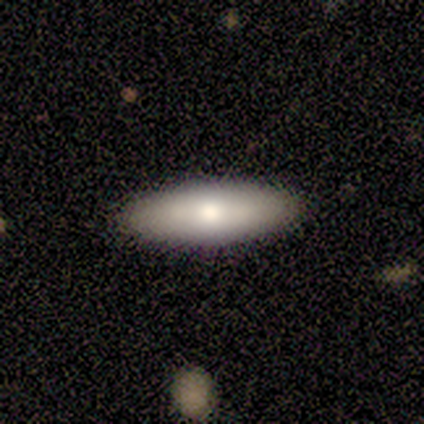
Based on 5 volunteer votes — Volunteers were most divided on "how rounded": in between: 67%, cigar-shaped: 33%, round: 0%. More confident: merging — none (100%); smooth or featured — smooth (60%).